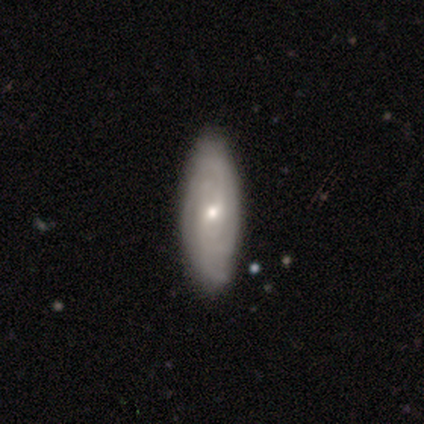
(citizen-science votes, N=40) Volunteers were most divided on "bulge size" (2-way tie): moderate: 50%, small: 50%, dominant: 0%, large: 0%, none: 0%. Remaining: edge-on disk — no (91%); smooth or featured — featured or disk (88%); spiral winding — tight (85%); spiral arms — yes (84%); merging — none (59%); bar — no (56%); spiral arm count — can't tell (41%).